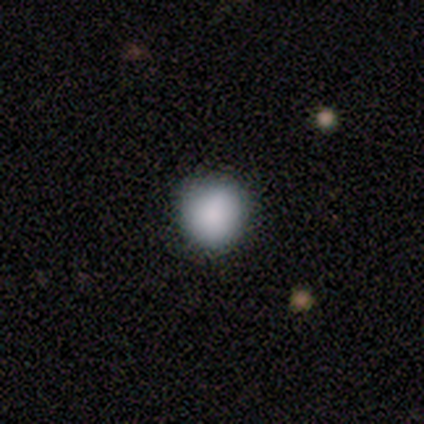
smooth-or-featured: smooth: 80% | featured or disk: 20% | star or artifact: 0%
  how-rounded: round: 100% | in between: 0% | cigar-shaped: 0%
  merging: none: 80% | major disturbance: 20% | minor disturbance: 0% | merger: 0%